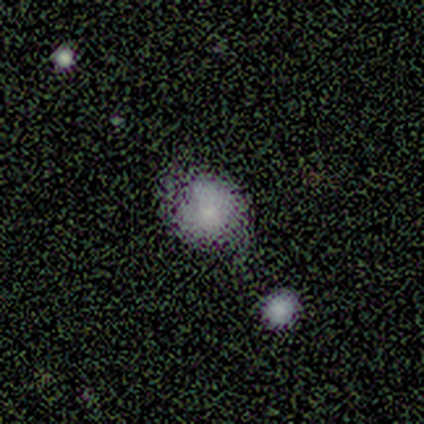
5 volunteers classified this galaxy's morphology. Smooth or featured?
  - smooth: 60% *
  - featured or disk: 40%
  - star or artifact: 0%
How rounded?
  - round: 100% *
  - in between: 0%
  - cigar-shaped: 0%
Merging?
  - none: 60% *
  - merger: 40%
  - minor disturbance: 0%
  - major disturbance: 0%